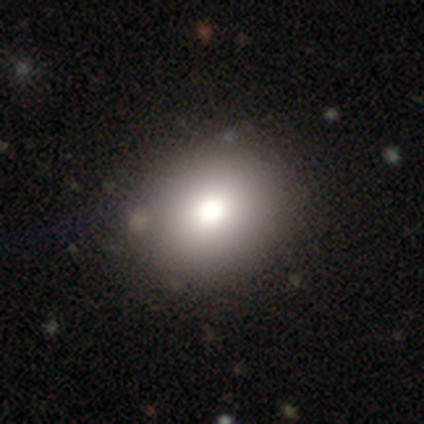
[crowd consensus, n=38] Volunteers were most divided on "how rounded": round: 57%, in between: 40%, cigar-shaped: 3%. More confident: smooth or featured — smooth (79%); merging — none (79%).